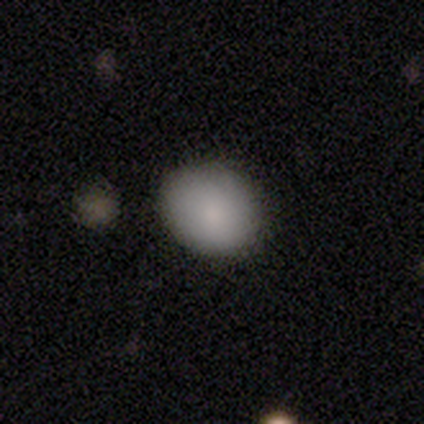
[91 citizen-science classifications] smooth_or_featured: smooth (p=0.84) [alt: star or artifact p=0.09]
how_rounded: round (p=0.55) [alt: in between p=0.43]
merging: none (p=0.90) [alt: minor disturbance p=0.06]